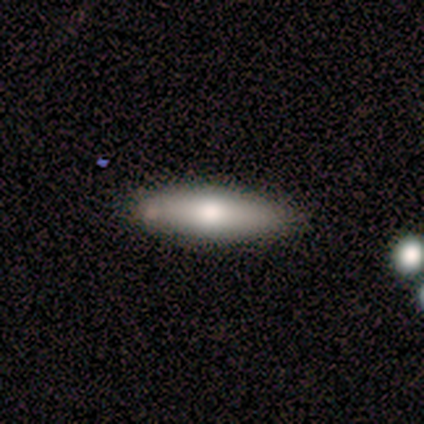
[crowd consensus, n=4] smooth_or_featured: smooth (p=0.50) [tied with: featured or disk p=0.50]
how_rounded: cigar-shaped (p=1.00)
merging: minor disturbance (p=0.75) [alt: none p=0.25]